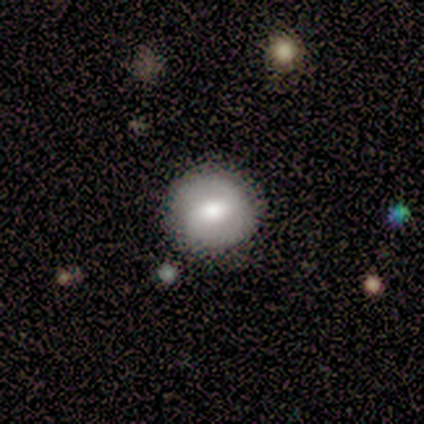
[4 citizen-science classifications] Q: Smooth or featured?
A: smooth (75%); runner-up: featured or disk (25%)
Q: How rounded?
A: round (100%)
Q: Merging?
A: none (75%); runner-up: minor disturbance (25%)